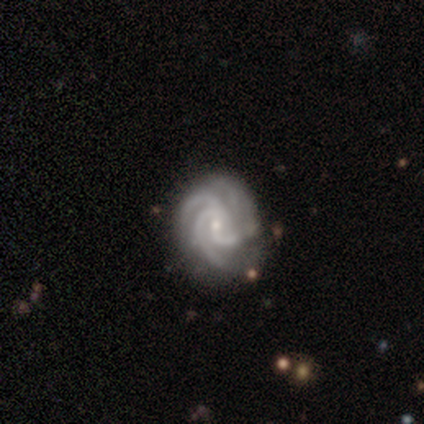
featured or disk 80%, smooth 20%, star or artifact 0%. Down the decision tree: edge-on disk — no (100%); bar — no (75%); spiral arms — yes (100%); spiral arm count — 3 (50%, tied with 4); spiral winding — tight (75%); bulge size — moderate (100%); merging — none (40%).